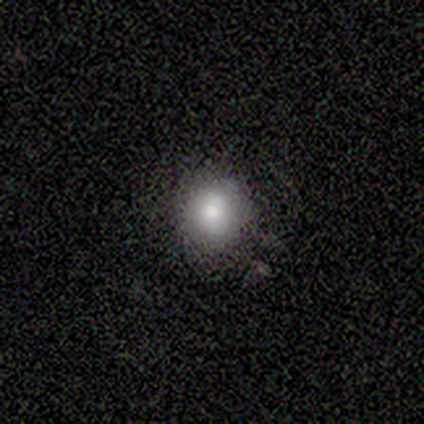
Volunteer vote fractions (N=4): Volunteers were most divided on "merging": none: 67%, minor disturbance: 33%, major disturbance: 0%, merger: 0%. More confident: how rounded — round (100%); smooth or featured — smooth (75%).